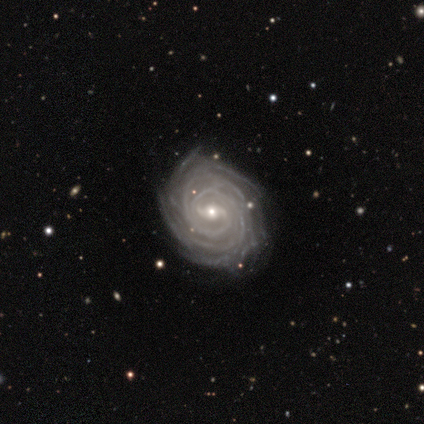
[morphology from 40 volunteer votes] Smooth or featured? 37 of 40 (92%) said featured or disk. Edge-on disk? 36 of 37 (97%) said no. Bar? 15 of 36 (42%) said weak. Spiral arms? 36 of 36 (100%) said yes. Spiral winding? 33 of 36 (92%) said tight. Spiral arm count? 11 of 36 (31%) said more than 4. Bulge size? 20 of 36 (56%) said moderate. Merging? 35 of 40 (88%) said none.